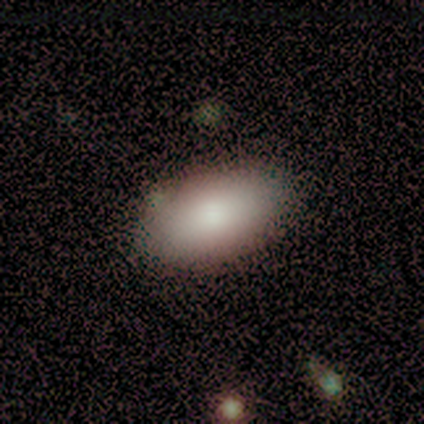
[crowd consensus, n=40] smooth-or-featured: smooth: 90% | featured or disk: 8% | star or artifact: 2%
  how-rounded: in between: 92% | cigar-shaped: 6% | round: 3%
  merging: none: 90% | minor disturbance: 8% | merger: 3% | major disturbance: 0%